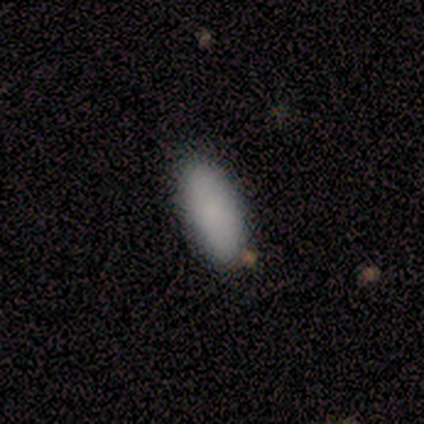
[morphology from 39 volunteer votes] Overall: smooth (82%). How rounded: in between (88%). Merging: none (84%).